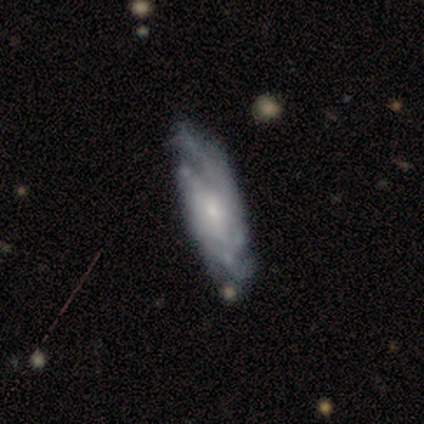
smooth_or_featured: featured or disk (p=1.00)
disk_edge_on: no (p=1.00)
bar: no (p=0.80) [alt: weak p=0.20]
has_spiral_arms: yes (p=0.60) [alt: no p=0.40]
spiral_winding: tight (p=0.33) [tied with: medium p=0.33, loose p=0.33]
spiral_arm_count: can't tell (p=0.67) [alt: 4 p=0.33]
bulge_size: none (p=0.60) [alt: moderate p=0.20]
merging: none (p=0.40) [tied with: minor disturbance p=0.40]